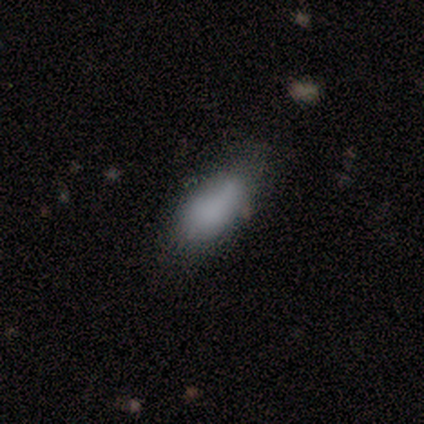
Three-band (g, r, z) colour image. It shows a smooth galaxy with no disk features (80%) that is in between round and cigar-shaped (50%, tied with cigar-shaped). Merging: none (50%, tied with minor disturbance).